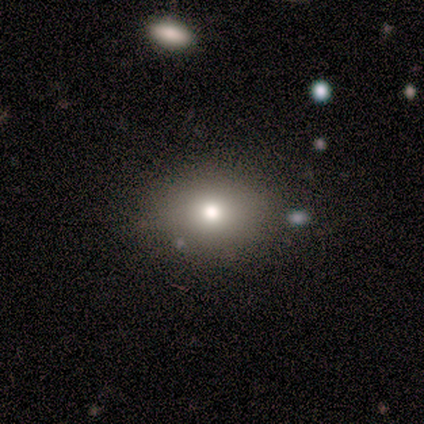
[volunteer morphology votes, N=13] A smooth galaxy with no disk features (54%) that is in between round and cigar-shaped (57%).

Vote fractions:
- Smooth or featured? smooth: 54% / star or artifact: 31% / featured or disk: 15%
- How rounded? in between: 57% / round: 43% / cigar-shaped: 0%
- Merging? none: 78% / minor disturbance: 22% / major disturbance: 0% / merger: 0%